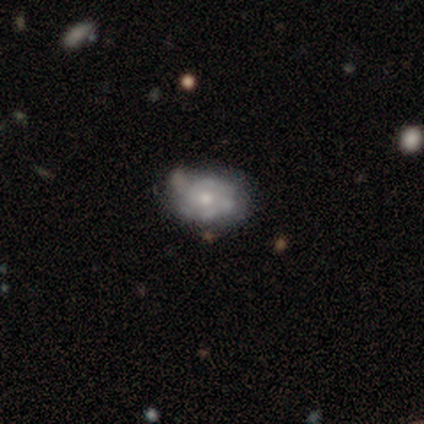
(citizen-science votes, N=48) smooth-or-featured: featured or disk: 73% | smooth: 17% | star or artifact: 10%
  disk-edge-on: no: 100% | yes: 0%
    bar: no: 94% | strong: 3% | weak: 3%
    has-spiral-arms: no: 51% | yes: 49%
    bulge-size: small: 54% | moderate: 46% | dominant: 0% | large: 0% | none: 0%
  merging: none: 67% | minor disturbance: 19% | major disturbance: 7% | merger: 7%